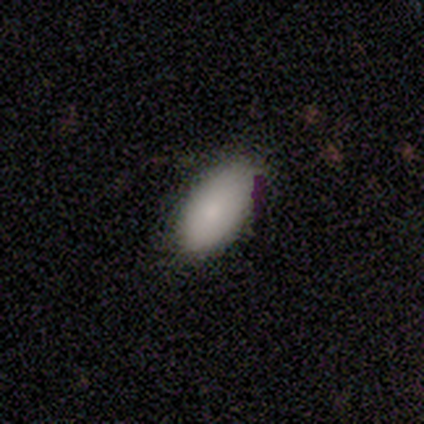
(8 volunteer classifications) smooth-or-featured: smooth: 75% | featured or disk: 25% | star or artifact: 0%
  how-rounded: in between: 100% | round: 0% | cigar-shaped: 0%
  merging: none: 75% | minor disturbance: 25% | major disturbance: 0% | merger: 0%